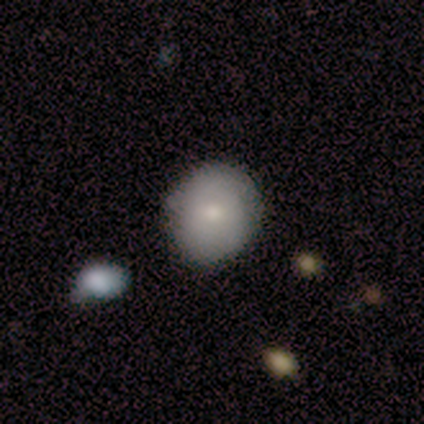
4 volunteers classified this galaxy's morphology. smooth_or_featured: smooth (p=0.50) [tied with: featured or disk p=0.50]
how_rounded: round (p=1.00)
merging: none (p=1.00)